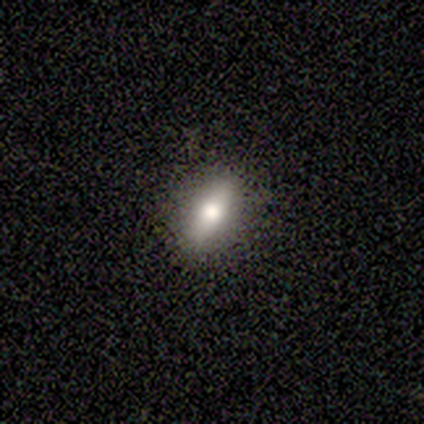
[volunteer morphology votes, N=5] Smooth or featured?
  - smooth: 80% *
  - featured or disk: 20%
  - star or artifact: 0%
How rounded?
  - in between: 75% *
  - cigar-shaped: 25%
  - round: 0%
Merging?
  - none: 100% *
  - minor disturbance: 0%
  - major disturbance: 0%
  - merger: 0%